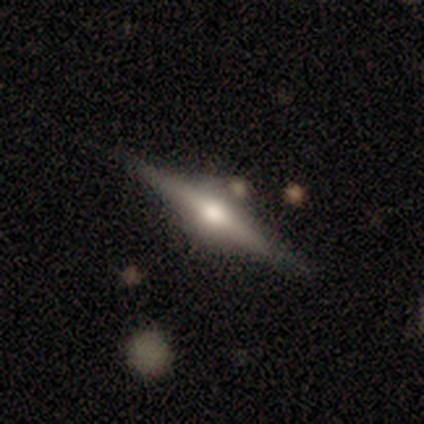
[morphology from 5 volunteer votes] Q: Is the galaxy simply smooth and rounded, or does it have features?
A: featured or disk — 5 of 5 (100%).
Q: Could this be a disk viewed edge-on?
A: yes — 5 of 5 (100%).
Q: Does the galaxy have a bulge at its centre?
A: rounded — 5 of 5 (100%).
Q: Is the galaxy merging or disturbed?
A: none — 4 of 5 (80%).